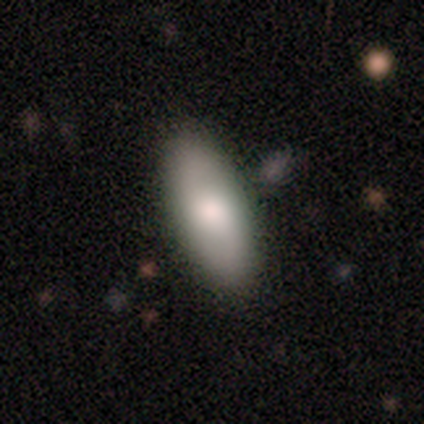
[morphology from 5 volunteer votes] Q: Smooth or featured?
A: smooth (80%); runner-up: featured or disk (20%)
Q: How rounded?
A: in between (100%)
Q: Merging?
A: none (80%); runner-up: minor disturbance (20%)